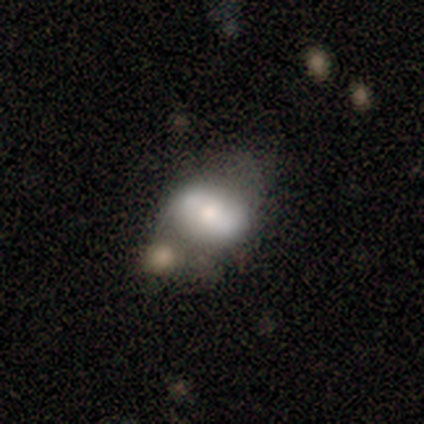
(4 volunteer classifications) A smooth galaxy with no disk features (50%, tied with featured or disk) that is in between round and cigar-shaped (100%). Merging: none (50%, tied with minor disturbance).